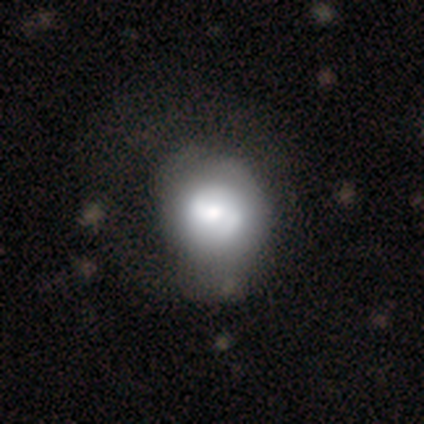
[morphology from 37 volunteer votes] Smooth or featured? 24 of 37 (65%) said featured or disk. Edge-on disk? 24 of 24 (100%) said no. Bar? 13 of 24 (54%) said weak. Spiral arms? 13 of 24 (54%) said no. Bulge size? 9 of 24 (38%) said moderate. Merging? 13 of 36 (36%) said minor disturbance.